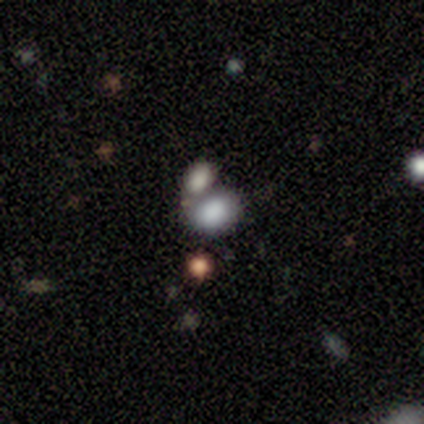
Smooth or featured? smooth (50%)
How rounded? in between (100%)
Merging? merger (67%)